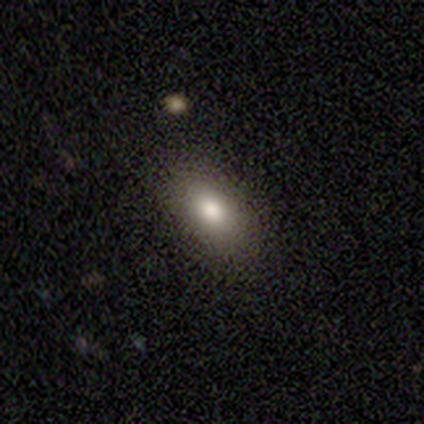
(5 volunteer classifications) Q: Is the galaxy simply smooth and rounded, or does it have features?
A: smooth — 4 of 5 (80%).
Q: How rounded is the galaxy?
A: in between — 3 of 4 (75%).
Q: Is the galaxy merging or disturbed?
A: none — 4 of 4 (100%).